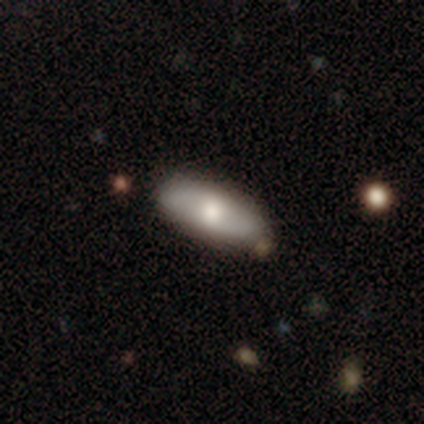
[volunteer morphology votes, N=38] A smooth galaxy with no disk features (71%) that is in between round and cigar-shaped (81%).

Vote fractions:
- Smooth or featured? smooth: 71% / featured or disk: 21% / star or artifact: 8%
- How rounded? in between: 81% / cigar-shaped: 19% / round: 0%
- Merging? none: 83% / minor disturbance: 11% / major disturbance: 3% / merger: 3%